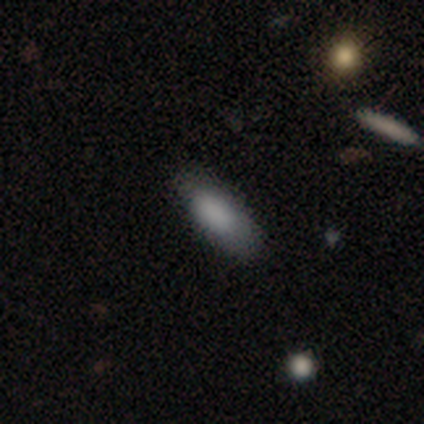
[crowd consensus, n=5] smooth-or-featured: smooth: 80% | star or artifact: 20% | featured or disk: 0%
  how-rounded: in between: 100% | round: 0% | cigar-shaped: 0%
  merging: none: 75% | minor disturbance: 25% | major disturbance: 0% | merger: 0%